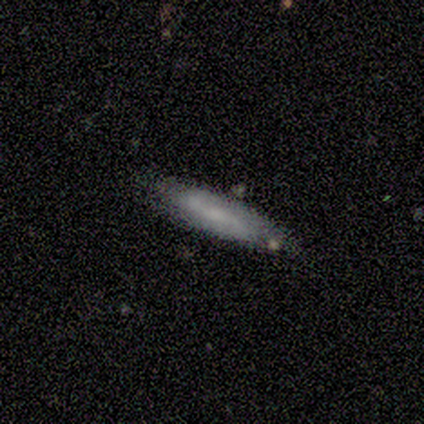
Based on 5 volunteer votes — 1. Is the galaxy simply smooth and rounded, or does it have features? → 60% featured or disk, 40% smooth, 0% star or artifact.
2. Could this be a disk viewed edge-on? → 67% no, 33% yes.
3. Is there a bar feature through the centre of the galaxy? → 100% no, 0% strong, 0% weak.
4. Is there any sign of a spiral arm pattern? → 100% yes, 0% no.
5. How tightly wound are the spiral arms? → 50% medium (tied), 50% loose (tied), 0% tight.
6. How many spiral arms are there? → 100% 2, 0% 1, 0% 3, 0% 4, 0% more than 4, 0% can't tell.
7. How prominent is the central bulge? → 50% small (tied), 50% none (tied), 0% dominant, 0% large, 0% moderate.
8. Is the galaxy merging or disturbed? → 80% none, 20% minor disturbance, 0% major disturbance, 0% merger.